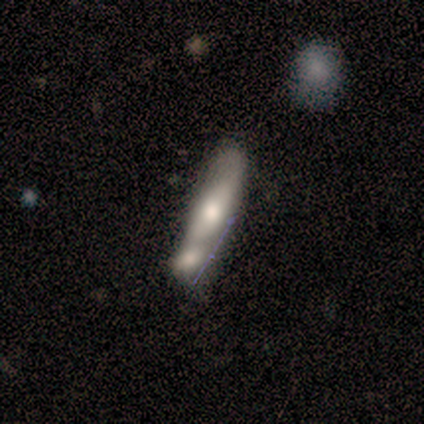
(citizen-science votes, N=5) Morphology: type=featured or disk (60%); edge-on=no (100%); bar=no (67%); spiral arms=no (67%); bulge=moderate (67%); merging=merger (40%).